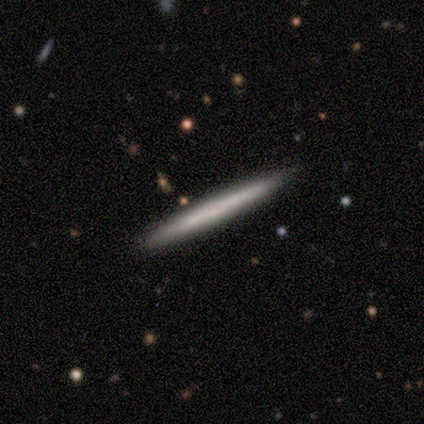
Smooth or featured?
  - smooth: 48% *
  - featured or disk: 44%
  - star or artifact: 8%
How rounded?
  - cigar-shaped: 100% *
  - round: 0%
  - in between: 0%
Merging?
  - none: 89% *
  - minor disturbance: 9%
  - merger: 2%
  - major disturbance: 0%